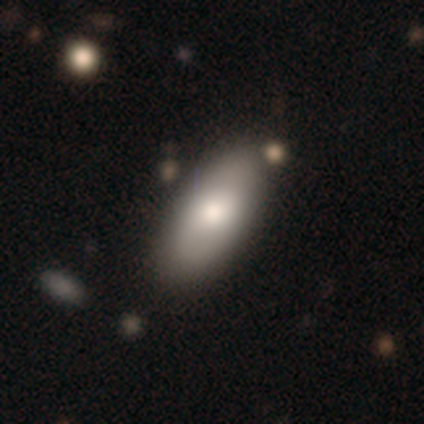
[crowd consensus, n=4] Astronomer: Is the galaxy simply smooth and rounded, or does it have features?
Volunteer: smooth — 100%.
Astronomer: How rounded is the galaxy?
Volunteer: in between — 100%.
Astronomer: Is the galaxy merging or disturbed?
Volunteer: none — 100%.